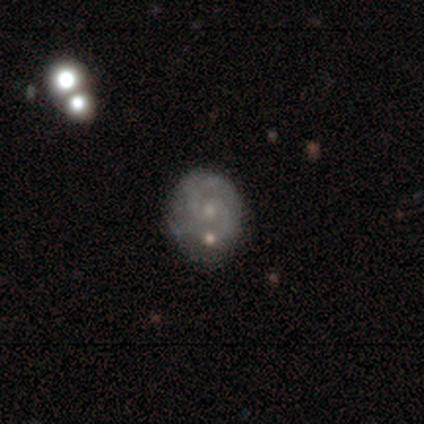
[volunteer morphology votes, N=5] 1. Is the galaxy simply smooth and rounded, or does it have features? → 100% featured or disk, 0% smooth, 0% star or artifact.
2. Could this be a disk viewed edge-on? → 100% no, 0% yes.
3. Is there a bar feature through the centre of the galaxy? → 80% weak, 20% no, 0% strong.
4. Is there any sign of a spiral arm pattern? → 60% yes, 40% no.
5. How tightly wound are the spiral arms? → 67% tight, 33% loose, 0% medium.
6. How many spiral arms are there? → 100% 2, 0% 1, 0% 3, 0% 4, 0% more than 4, 0% can't tell.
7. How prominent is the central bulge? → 80% small, 20% none, 0% dominant, 0% large, 0% moderate.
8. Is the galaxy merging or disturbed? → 60% none, 40% minor disturbance, 0% major disturbance, 0% merger.